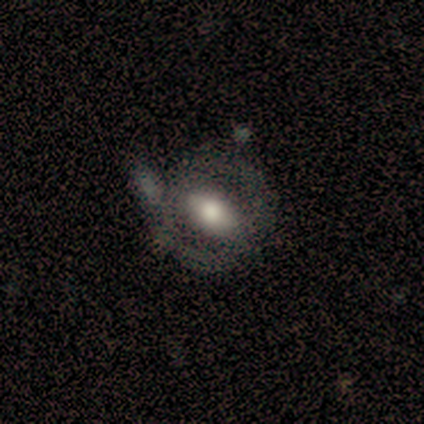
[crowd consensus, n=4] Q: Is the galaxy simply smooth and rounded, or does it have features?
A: featured or disk — 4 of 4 (100%).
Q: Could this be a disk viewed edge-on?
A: no — 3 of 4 (75%).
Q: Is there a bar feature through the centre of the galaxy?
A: strong — 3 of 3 (100%).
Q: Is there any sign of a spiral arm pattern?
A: yes — 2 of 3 (67%).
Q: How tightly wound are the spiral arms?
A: medium — 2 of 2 (100%).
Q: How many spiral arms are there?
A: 2 — 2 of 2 (100%).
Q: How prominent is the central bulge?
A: large — 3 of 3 (100%).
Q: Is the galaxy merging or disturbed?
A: minor disturbance — 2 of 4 (50%).